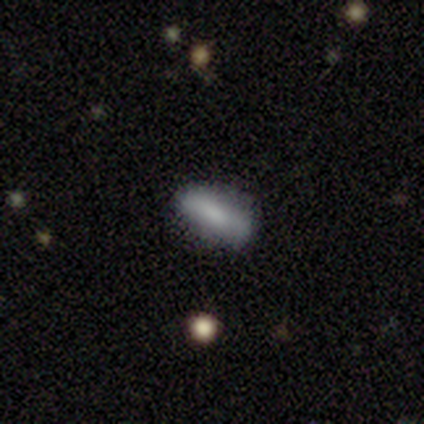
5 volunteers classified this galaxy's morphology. Smooth or featured? 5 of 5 (100%) said smooth. How rounded? 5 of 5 (100%) said in between. Merging? 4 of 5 (80%) said none.